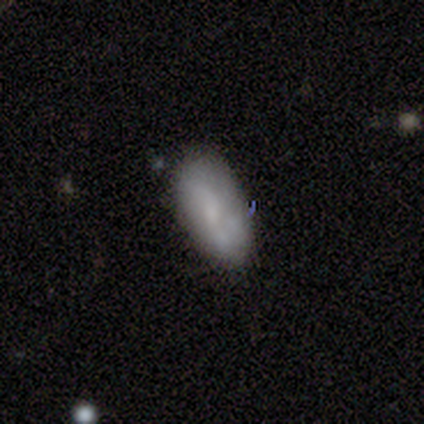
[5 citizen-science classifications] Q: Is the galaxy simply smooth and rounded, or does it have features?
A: smooth — 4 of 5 (80%).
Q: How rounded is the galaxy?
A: in between — 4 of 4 (100%).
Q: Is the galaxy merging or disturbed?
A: none — 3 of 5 (60%).